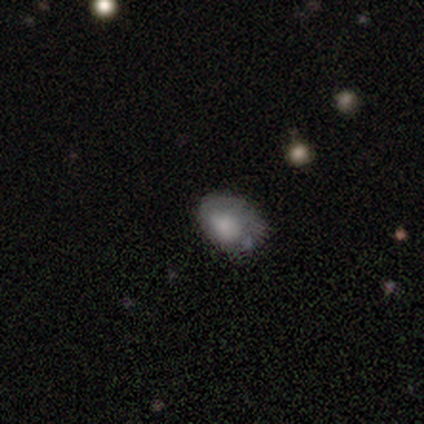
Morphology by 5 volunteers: This appears to be a smooth galaxy with no disk features (100%) that is in between round and cigar-shaped (100%). Merging: none (40%, tied with minor disturbance).